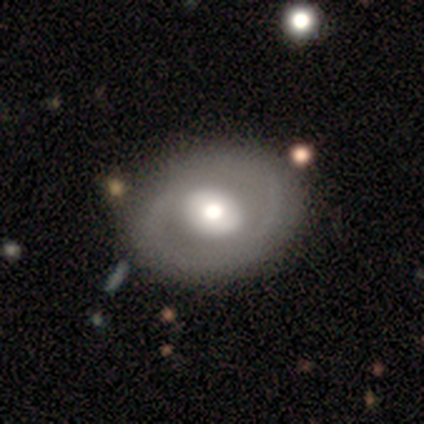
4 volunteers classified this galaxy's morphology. type=featured or disk (50%); edge-on=no (100%); bar=weak (50%, tied with no); spiral arms=yes (50%, tied with no); winding=loose (100%); arm count=2 (100%); bulge=large (50%, tied with moderate); merging=none (100%).